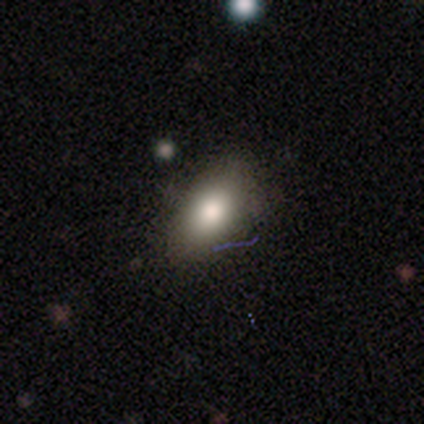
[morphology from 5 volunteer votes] Smooth or featured: smooth — 60% (featured or disk — 20%)
How rounded: in between — 100%
Merging: none — 75% (minor disturbance — 25%)